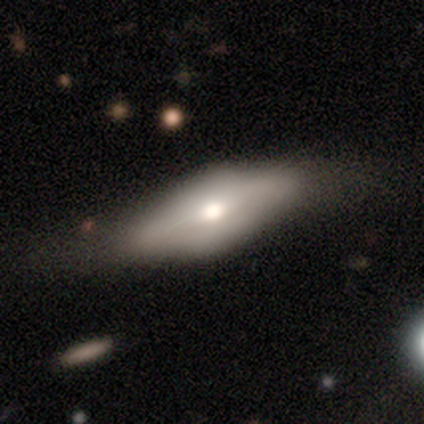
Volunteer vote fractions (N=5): Smooth or featured? featured or disk (80%)
Edge-on disk? yes (100%)
Edge-on bulge? rounded (100%)
Merging? none (100%)